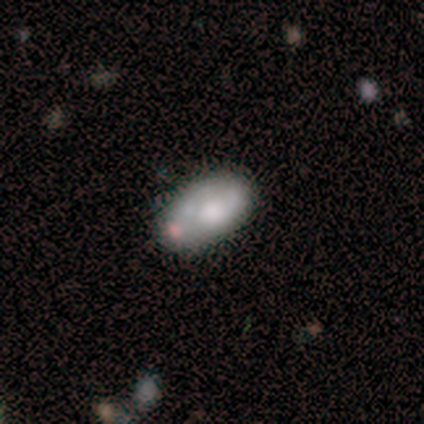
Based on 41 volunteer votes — Smooth or featured? smooth (54%)
How rounded? in between (91%)
Merging? none (50%)